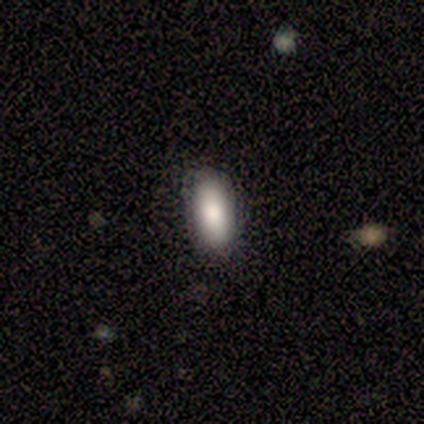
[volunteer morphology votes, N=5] smooth_or_featured: smooth (p=0.80) [alt: featured or disk p=0.20]
how_rounded: in between (p=1.00)
merging: none (p=1.00)